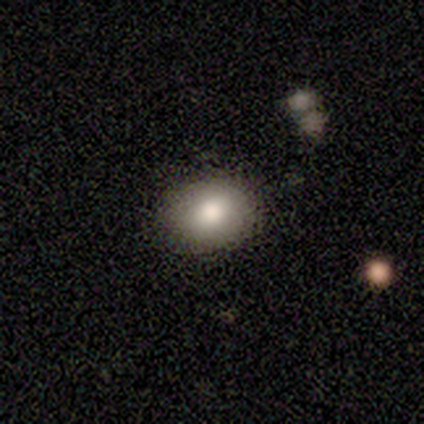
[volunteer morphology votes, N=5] Smooth or featured?
  - smooth: 60% *
  - featured or disk: 40%
  - star or artifact: 0%
How rounded?
  - round: 67% *
  - in between: 33%
  - cigar-shaped: 0%
Merging?
  - none: 80% *
  - minor disturbance: 20%
  - major disturbance: 0%
  - merger: 0%